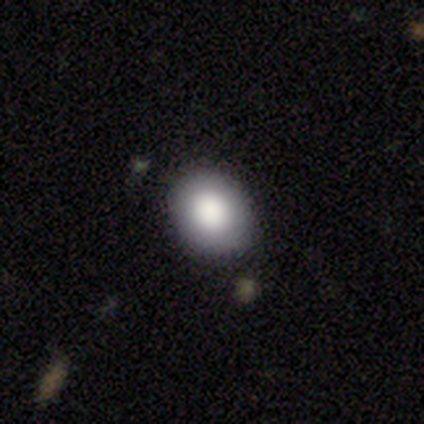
A smooth galaxy with no disk features (73%) that is round (52%).

Vote fractions:
- Smooth or featured? smooth: 73% / featured or disk: 16% / star or artifact: 11%
- How rounded? round: 52% / in between: 48% / cigar-shaped: 0%
- Merging? none: 79% / minor disturbance: 18% / major disturbance: 3% / merger: 0%